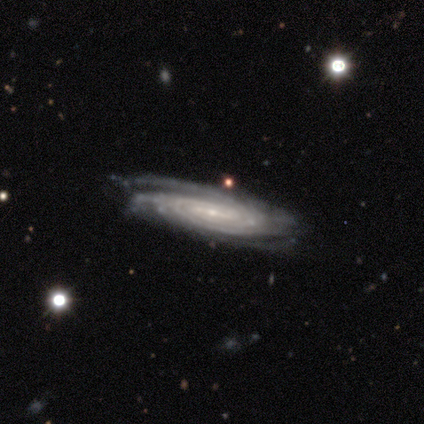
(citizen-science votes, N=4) This appears to be a featured or disk galaxy (100%) with a strong bar (67%), more than 4 (67%) tight (100%) spiral arms (100%) and a small central bulge (67%). Merging: none (50%, tied with major disturbance).